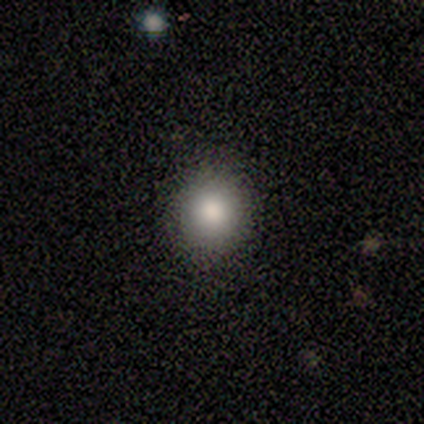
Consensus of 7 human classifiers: Volunteers were most divided on "smooth or featured": smooth: 71%, featured or disk: 14%, star or artifact: 14%. More confident: how rounded — round (100%); merging — none (100%).